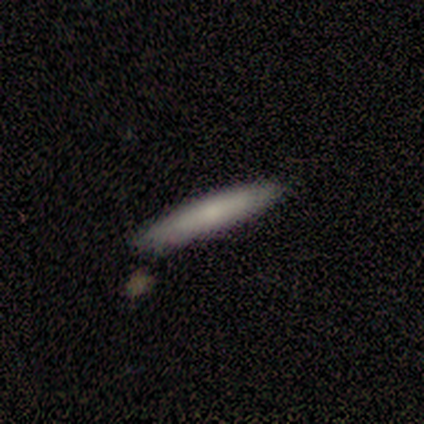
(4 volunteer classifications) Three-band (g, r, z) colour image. It shows a smooth galaxy with no disk features (100%) that is cigar-shaped (100%). Merging: none (50%, tied with minor disturbance).